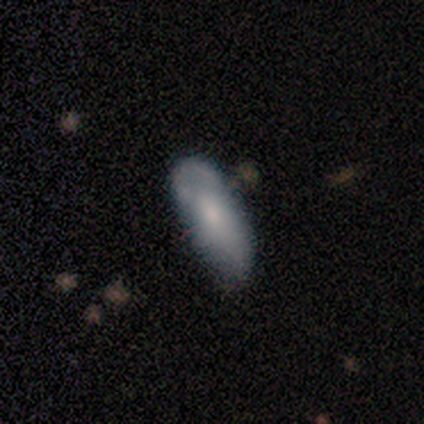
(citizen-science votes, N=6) Overall: smooth (83%). How rounded: cigar-shaped (60%; in between 40%). Merging: none (50%, tied with minor disturbance).